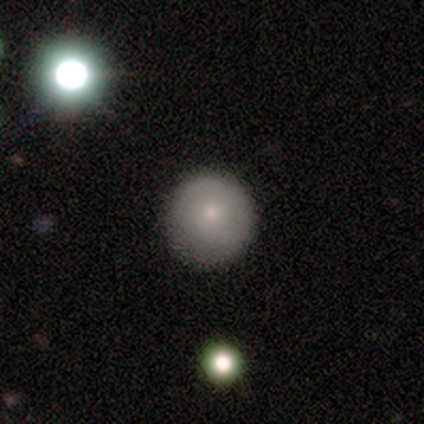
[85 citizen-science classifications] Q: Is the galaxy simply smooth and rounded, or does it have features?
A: smooth — 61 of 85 (72%).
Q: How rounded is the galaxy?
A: round — 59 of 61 (97%).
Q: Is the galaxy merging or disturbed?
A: none — 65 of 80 (81%).